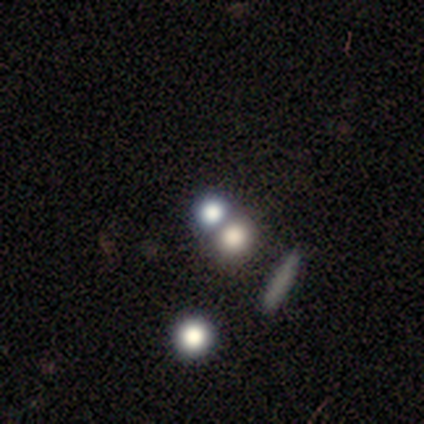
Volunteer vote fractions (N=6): Q: Smooth or featured?
A: smooth (67%); runner-up: star or artifact (33%)
Q: How rounded?
A: round (75%); runner-up: in between (25%)
Q: Merging?
A: merger (50%); runner-up: none (25%)